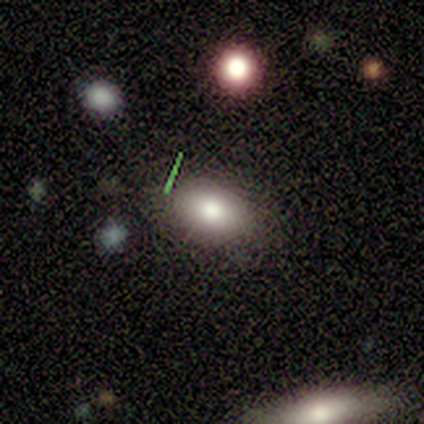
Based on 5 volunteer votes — This is marginally a smooth galaxy (40%, tied with star or artifact). How rounded: possibly round (50%, tied with in between). Merging: likely none (67%).